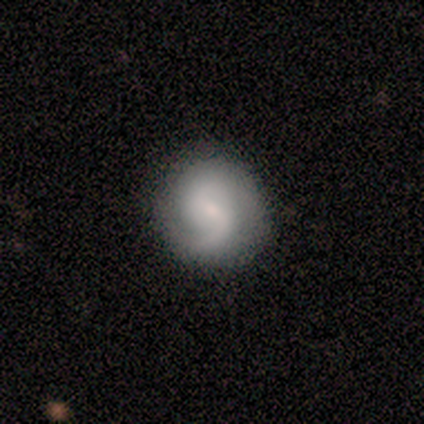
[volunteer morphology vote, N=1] A featured or disk galaxy (100%) with no bar (100%), 2 (100%) loose (100%) spiral arms (100%) and a small central bulge (100%). Merging: none (100%).